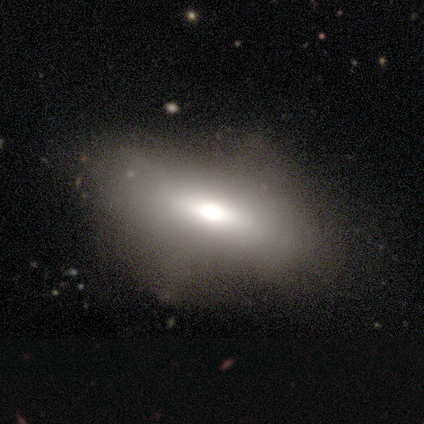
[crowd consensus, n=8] A smooth galaxy with no disk features (50%, tied with featured or disk) that is in between round and cigar-shaped (100%).

Vote fractions:
- Smooth or featured? smooth: 50% (tied) / featured or disk: 50% (tied) / star or artifact: 0%
- How rounded? in between: 100% / round: 0% / cigar-shaped: 0%
- Merging? none: 50% / minor disturbance: 38% / major disturbance: 12% / merger: 0%